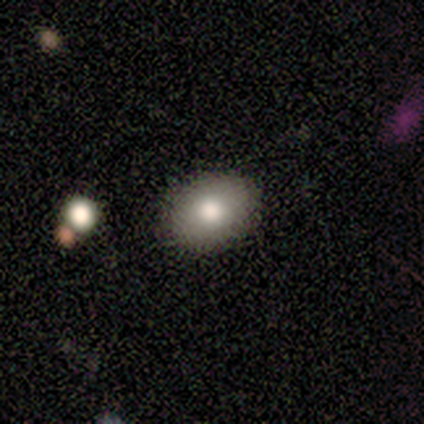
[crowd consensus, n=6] Smooth or featured? 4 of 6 (67%) said smooth. How rounded? 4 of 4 (100%) said in between. Merging? 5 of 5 (100%) said none.